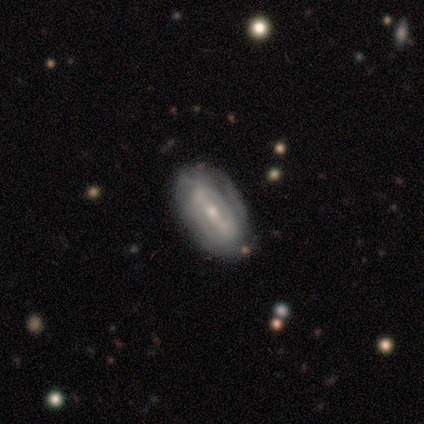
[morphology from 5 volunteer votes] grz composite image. It shows a featured or disk galaxy (100%) with a strong bar (75%), 3 (50%) tight (100%) spiral arms (100%) and a small central bulge (75%). Merging: none (40%, tied with minor disturbance).